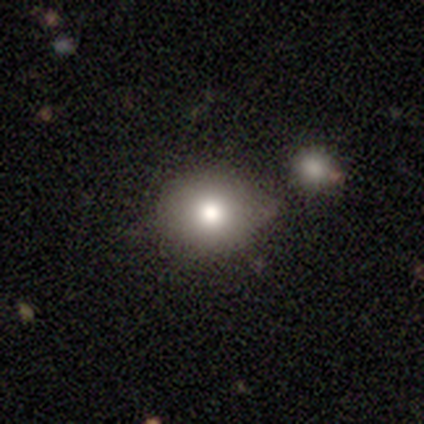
Q: Smooth or featured?
A: smooth (62%); runner-up: featured or disk (38%)
Q: How rounded?
A: round (60%); runner-up: in between (40%)
Q: Merging?
A: none (75%); runner-up: minor disturbance (25%)